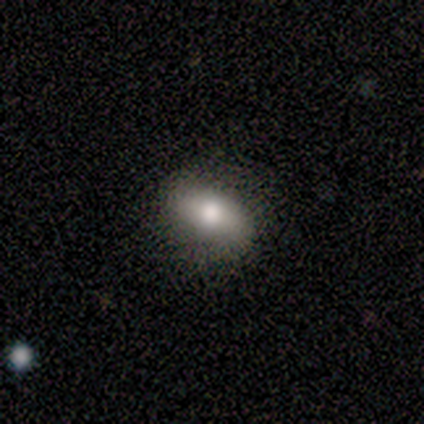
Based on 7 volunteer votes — Volunteers were most divided on "merging": none: 57%, minor disturbance: 29%, major disturbance: 14%, merger: 0%. More confident: how rounded — in between (100%); smooth or featured — smooth (86%).